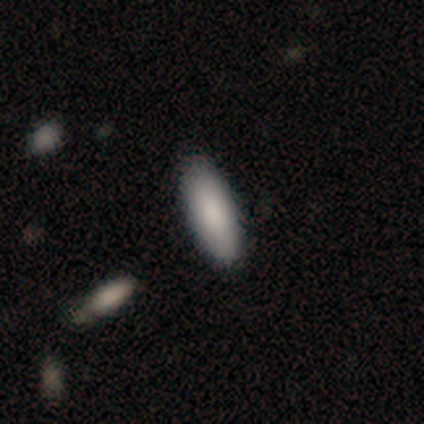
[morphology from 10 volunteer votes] smooth_or_featured: smooth (p=0.90) [alt: featured or disk p=0.10]
how_rounded: in between (p=0.78) [alt: cigar-shaped p=0.22]
merging: none (p=1.00)